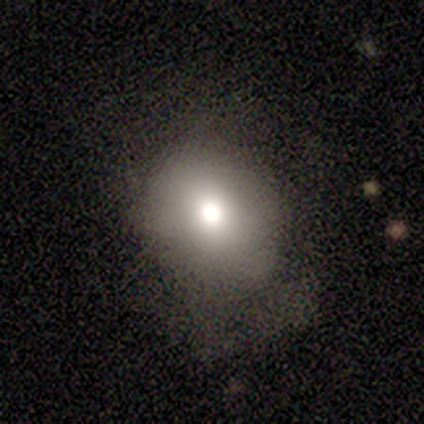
Morphology: type=smooth (77%); roundness=round (67%); merging=none (61%).